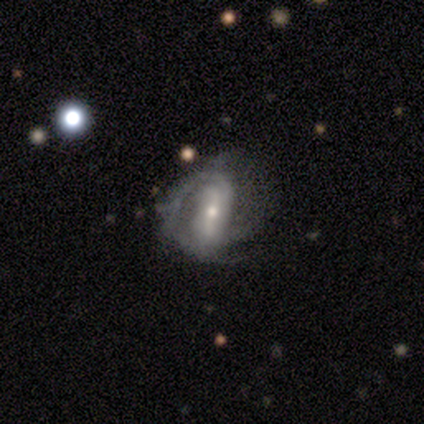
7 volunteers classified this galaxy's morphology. Volunteers were most divided on "bulge size" (2-way tie): moderate: 43%, small: 43%, large: 14%, dominant: 0%, none: 0%; "merging" (2-way tie): none: 43%, minor disturbance: 43%, major disturbance: 14%, merger: 0%. More confident: smooth or featured — featured or disk (100%); edge-on disk — no (100%); spiral winding — medium (100%); spiral arm count — 2 (100%); bar — strong (71%); spiral arms — yes (57%).